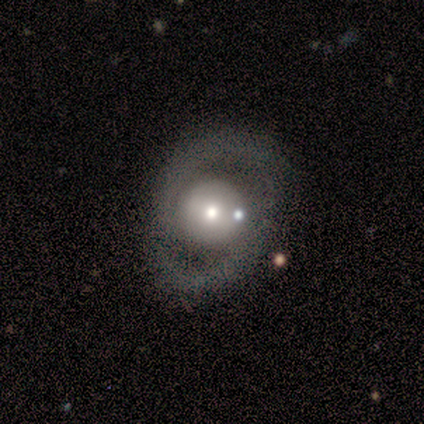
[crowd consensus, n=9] Smooth or featured: featured or disk — 56% (smooth — 44%)
Edge-on disk: no — 100%
Bar: no — 60% (strong — 20%)
Spiral arms: yes — 60% (no — 40%)
Spiral winding: tight — 67% (medium — 33%)
Spiral arm count: 2 — 100%
Bulge size: large — 60% (moderate — 20%)
Merging: none — 56% (minor disturbance — 33%)